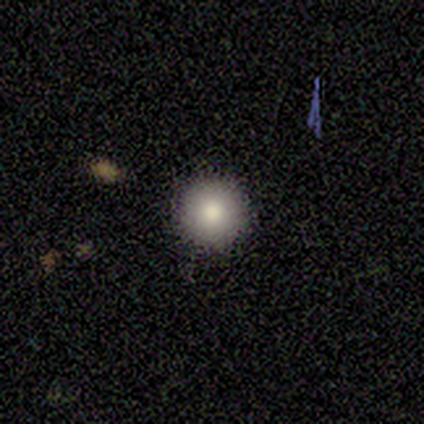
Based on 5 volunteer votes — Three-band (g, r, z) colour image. It shows a smooth galaxy with no disk features (80%) that is round (100%). Merging: none (100%).